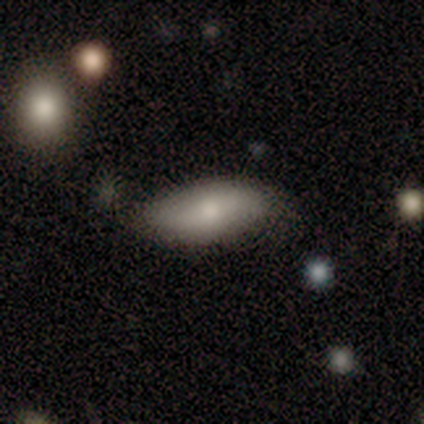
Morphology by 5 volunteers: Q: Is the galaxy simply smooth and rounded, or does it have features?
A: smooth — 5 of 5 (100%).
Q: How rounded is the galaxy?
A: in between — 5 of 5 (100%).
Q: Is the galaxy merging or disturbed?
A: none — 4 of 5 (80%).